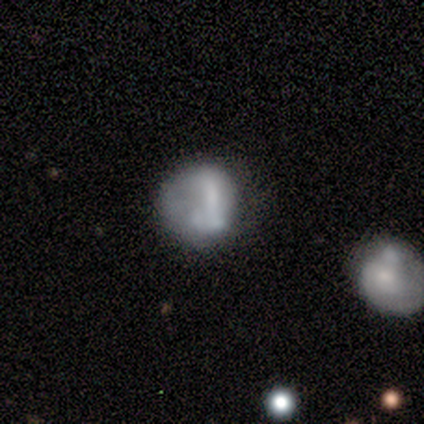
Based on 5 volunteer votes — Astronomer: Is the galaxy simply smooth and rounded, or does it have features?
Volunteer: featured or disk — 60% (runner-up: smooth, 40%).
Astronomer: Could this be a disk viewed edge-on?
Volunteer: no — 100%.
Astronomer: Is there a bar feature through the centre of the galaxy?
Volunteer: no — 67%.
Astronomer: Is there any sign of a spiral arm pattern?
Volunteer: no — 100%.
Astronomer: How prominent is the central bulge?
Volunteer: none — 100%.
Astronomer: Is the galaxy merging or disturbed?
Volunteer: none — 60%.